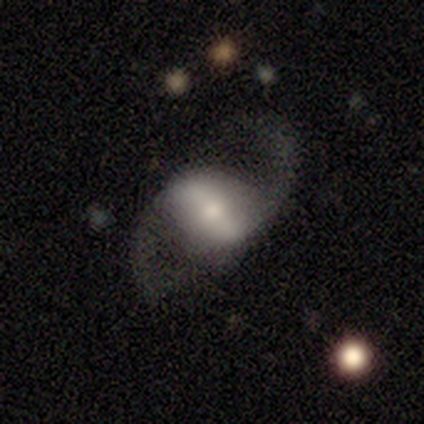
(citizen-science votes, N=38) A featured or disk galaxy (76%) with a strong bar (62%), 2 (100%) loose (72%) spiral arms (100%) and a small central bulge (45%).

Vote fractions:
- Smooth or featured? featured or disk: 76% / smooth: 16% / star or artifact: 8%
- Edge-on disk? no: 100% / yes: 0%
- Bar? strong: 62% / weak: 31% / no: 7%
- Spiral arms? yes: 100% / no: 0%
- Spiral winding? loose: 72% / medium: 24% / tight: 3%
- Spiral arm count? 2: 100% / 1: 0% / 3: 0% / 4: 0% / more than 4: 0% / can't tell: 0%
- Bulge size? small: 45% / moderate: 34% / large: 10% / none: 7% / dominant: 3%
- Merging? none: 74% / minor disturbance: 14% / major disturbance: 9% / merger: 3%